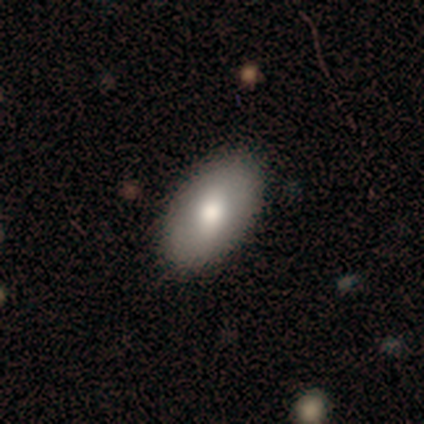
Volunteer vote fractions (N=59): Smooth or featured: smooth — 78% (featured or disk — 20%)
How rounded: in between — 93% (round — 4%)
Merging: none — 86% (minor disturbance — 10%)